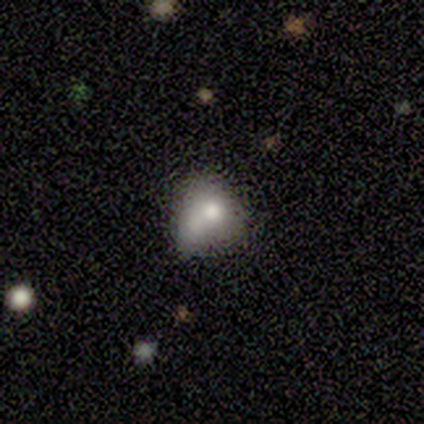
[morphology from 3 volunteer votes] smooth_or_featured: smooth (p=0.67) [alt: featured or disk p=0.33]
how_rounded: round (p=0.50) [tied with: in between p=0.50]
merging: none (p=0.33) [tied with: minor disturbance p=0.33, merger p=0.33]